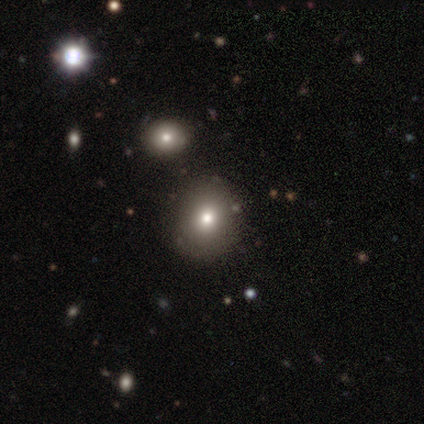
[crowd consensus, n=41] smooth 71%, star or artifact 20%, featured or disk 10%. Down the decision tree: how rounded — round (62%); merging — none (91%).